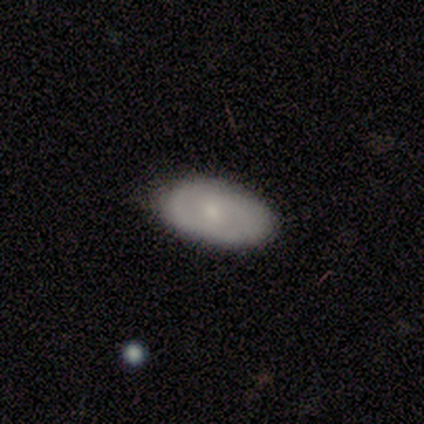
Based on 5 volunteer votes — This appears to be a smooth galaxy with no disk features (80%) that is in between round and cigar-shaped (75%). Merging: none (100%).